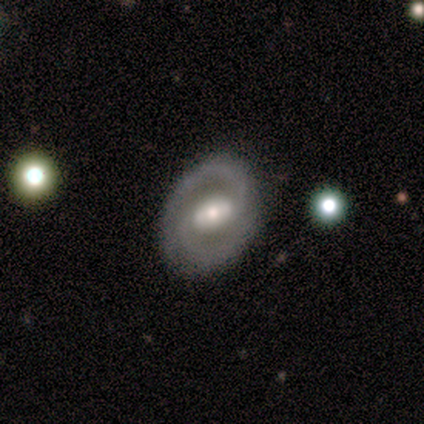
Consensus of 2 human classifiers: Smooth or featured: featured or disk — 100%
Edge-on disk: no — 100%
Bar: strong — 50% (tied with weak — 50%)
Spiral arms: yes — 100%
Spiral winding: tight — 50% (tied with medium — 50%)
Spiral arm count: 2 — 100%
Bulge size: large — 50% (tied with small — 50%)
Merging: none — 100%